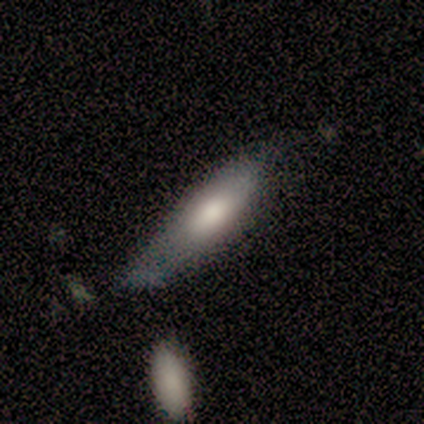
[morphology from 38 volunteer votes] This appears to be a smooth galaxy with no disk features (66%) that is cigar-shaped (52%). Merging: minor disturbance (42%).